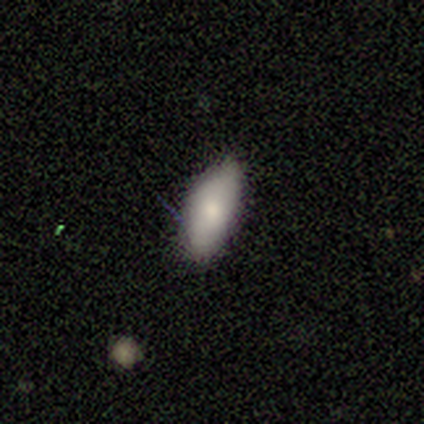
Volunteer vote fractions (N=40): This is likely a smooth galaxy (75%). How rounded: clearly in between (80%). Merging: clearly none (84%).